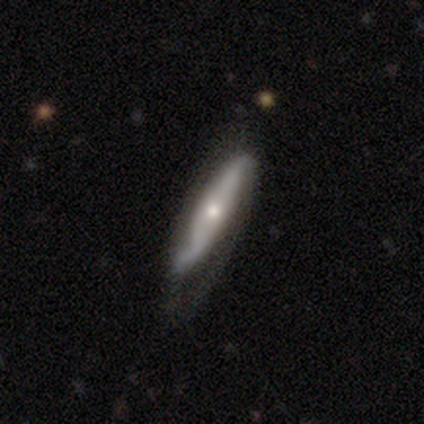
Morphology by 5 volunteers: Smooth or featured?
  - featured or disk: 60% *
  - smooth: 40%
  - star or artifact: 0%
Edge-on disk?
  - no: 100% *
  - yes: 0%
Bar?
  - strong: 67% *
  - no: 33%
  - weak: 0%
Spiral arms?
  - yes: 100% *
  - no: 0%
Spiral winding?
  - loose: 67% *
  - medium: 33%
  - tight: 0%
Spiral arm count?
  - 2: 100% *
  - 1: 0%
  - 3: 0%
  - 4: 0%
  - more than 4: 0%
  - can't tell: 0%
Bulge size?
  - dominant: 33% * (tied)
  - moderate: 33% * (tied)
  - small: 33% * (tied)
  - large: 0%
  - none: 0%
Merging?
  - none: 60% *
  - minor disturbance: 20%
  - major disturbance: 20%
  - merger: 0%